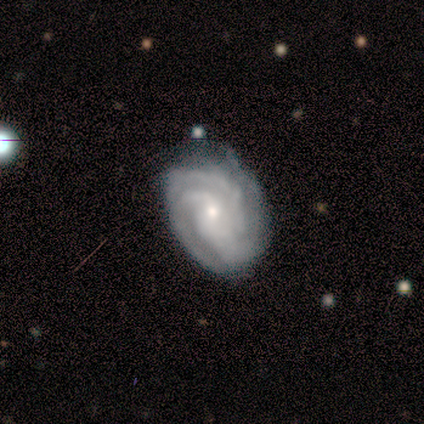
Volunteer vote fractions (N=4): Overall: featured or disk (100%). Edge-on disk: no (100%). Bar: no (75%). Spiral arms: yes (100%). Spiral arm count: 3 (50%; 2 25%). Spiral winding: tight (50%; medium 25%). Bulge size: moderate (50%, tied with small). Merging: minor disturbance (100%).